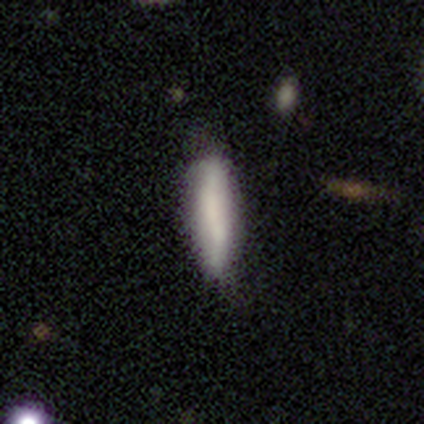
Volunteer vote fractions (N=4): Smooth or featured? featured or disk (50%)
Edge-on disk? no (100%)
Bar? weak (50%, tied with no)
Spiral arms? no (100%)
Bulge size? dominant (50%, tied with none)
Merging? minor disturbance (67%)